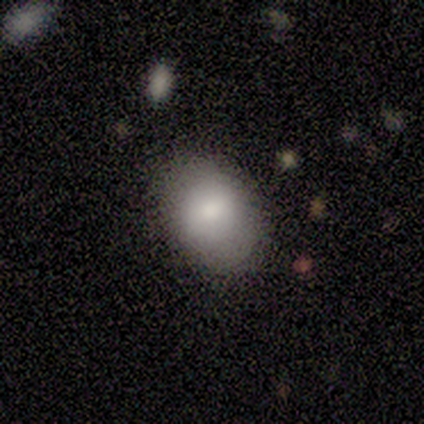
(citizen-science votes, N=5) This is clearly a smooth galaxy (80%). How rounded: likely in between (75%). Merging: clearly none (100%).